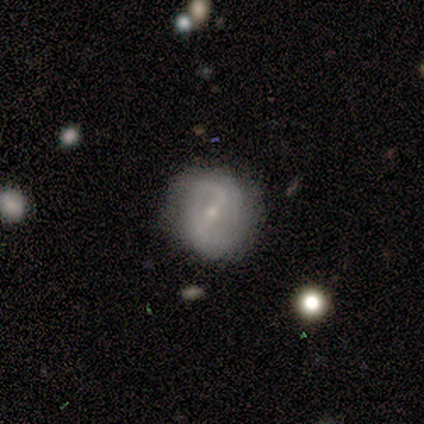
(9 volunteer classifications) Morphology: type=featured or disk (100%); edge-on=no (78%); bar=weak (57%); spiral arms=yes (71%); winding=loose (60%); arm count=2 (80%); bulge=small (71%); merging=none (67%).